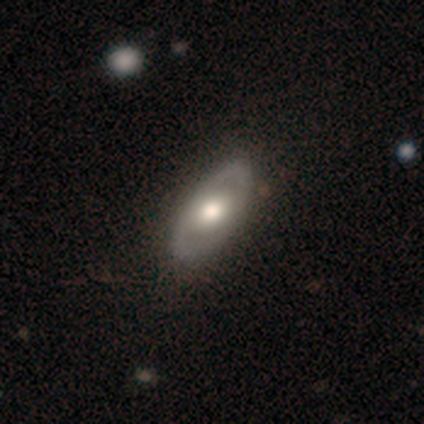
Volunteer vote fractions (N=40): Smooth or featured: featured or disk — 62% (smooth — 38%)
Edge-on disk: no — 88% (yes — 12%)
Bar: no — 68% (weak — 27%)
Spiral arms: no — 68% (yes — 32%)
Bulge size: large — 55% (moderate — 45%)
Merging: none — 70% (minor disturbance — 5%)